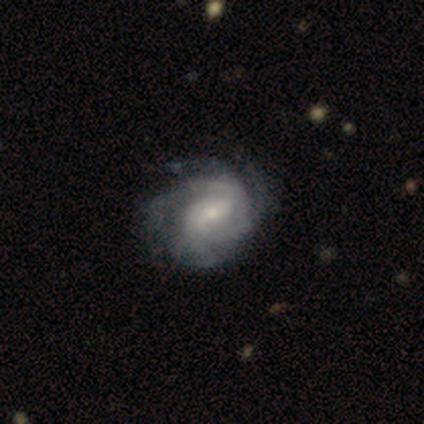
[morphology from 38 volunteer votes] Smooth or featured? 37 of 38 (97%) said featured or disk. Edge-on disk? 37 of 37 (100%) said no. Bar? 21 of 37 (57%) said weak. Spiral arms? 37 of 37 (100%) said yes. Spiral winding? 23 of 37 (62%) said tight. Spiral arm count? 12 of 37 (32%) said 4. Bulge size? 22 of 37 (59%) said small. Merging? 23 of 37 (62%) said none.